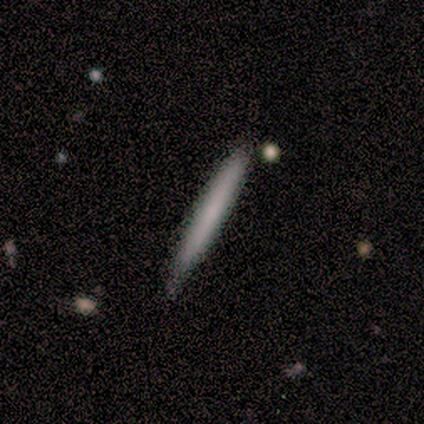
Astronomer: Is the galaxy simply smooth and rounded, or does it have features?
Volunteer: smooth — 80%.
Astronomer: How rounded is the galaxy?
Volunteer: cigar-shaped — 100%.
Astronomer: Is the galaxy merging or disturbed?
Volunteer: none — 40%, tied with minor disturbance at 40%.